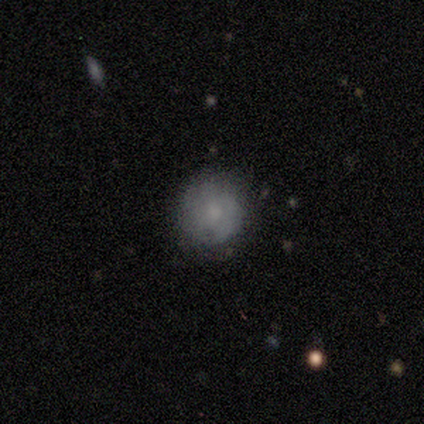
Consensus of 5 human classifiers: Smooth or featured?
  - smooth: 60% *
  - featured or disk: 40%
  - star or artifact: 0%
How rounded?
  - round: 100% *
  - in between: 0%
  - cigar-shaped: 0%
Merging?
  - none: 100% *
  - minor disturbance: 0%
  - major disturbance: 0%
  - merger: 0%